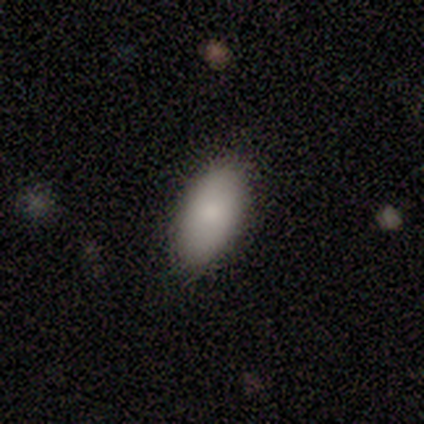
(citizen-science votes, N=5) Overall: smooth (80%). How rounded: in between (75%). Merging: none (100%).